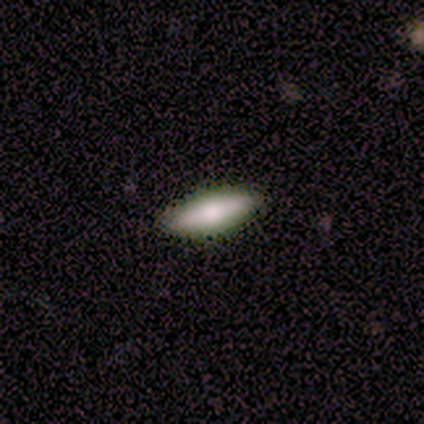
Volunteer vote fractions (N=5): This appears to be a smooth galaxy with no disk features (60%) that is cigar-shaped (67%). Merging: none (100%).